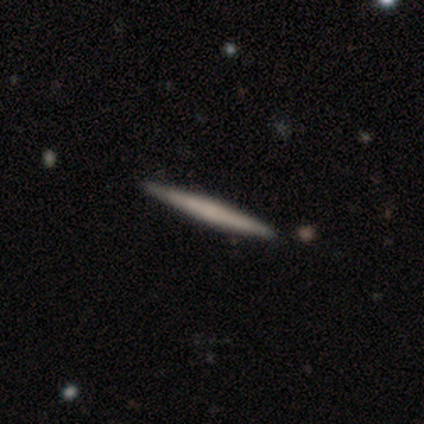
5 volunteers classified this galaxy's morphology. This appears to be a smooth galaxy with no disk features (80%) that is cigar-shaped (100%). Merging: none (100%).